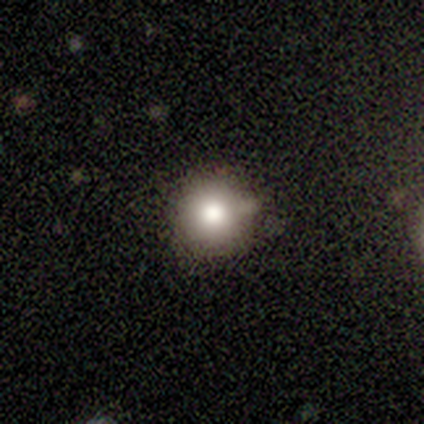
smooth_or_featured: smooth (p=0.80) [alt: star or artifact p=0.20]
how_rounded: round (p=0.75) [alt: in between p=0.25]
merging: none (p=0.50) [alt: minor disturbance p=0.25]